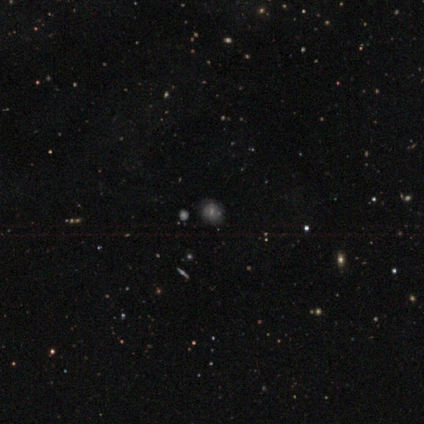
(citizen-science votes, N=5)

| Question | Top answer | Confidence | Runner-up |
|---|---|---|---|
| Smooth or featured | smooth | 80% | star or artifact (20%) |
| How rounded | round | 100% | — |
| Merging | none | 75% | major disturbance (25%) |